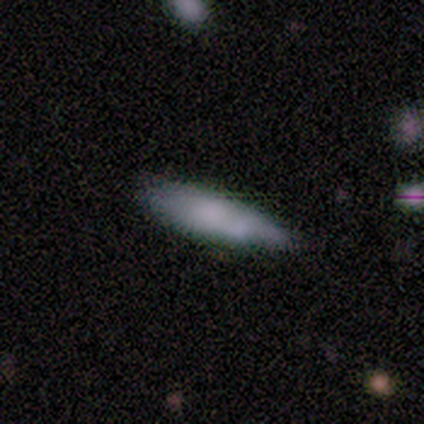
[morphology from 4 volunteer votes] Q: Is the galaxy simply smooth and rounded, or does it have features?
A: smooth — 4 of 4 (100%).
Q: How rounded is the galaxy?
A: in between — 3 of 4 (75%).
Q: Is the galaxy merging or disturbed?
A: none — 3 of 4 (75%).